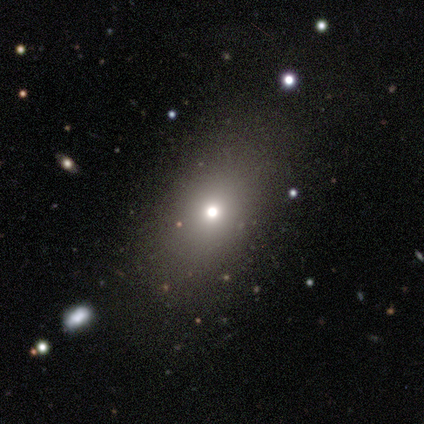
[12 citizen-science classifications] Morphology: type=smooth (50%); roundness=round (67%); merging=none (62%).